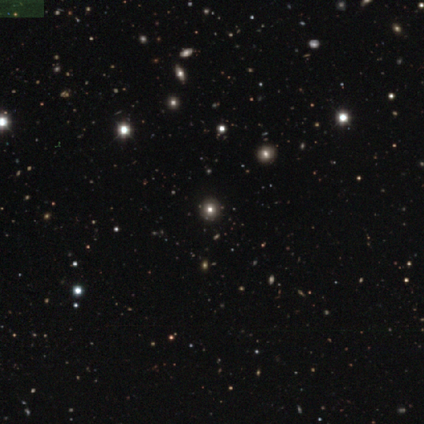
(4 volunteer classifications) Smooth or featured: smooth — 50% (featured or disk — 25%)
How rounded: round — 100%
Merging: none — 100%